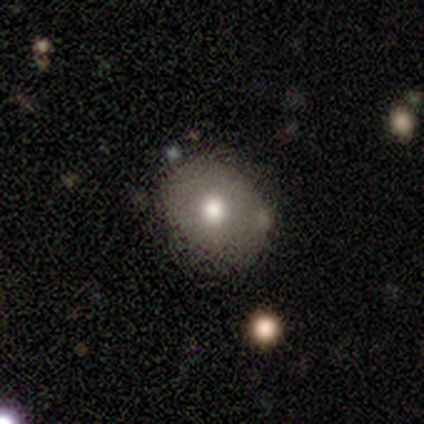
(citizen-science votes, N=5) smooth 60%, featured or disk 20%, star or artifact 20%. Down the decision tree: how rounded — round (100%); merging — none (75%).